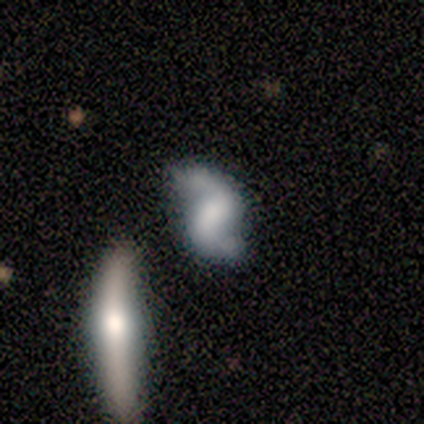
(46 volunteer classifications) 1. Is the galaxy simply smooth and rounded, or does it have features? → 78% featured or disk, 15% smooth, 7% star or artifact.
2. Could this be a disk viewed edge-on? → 97% no, 3% yes.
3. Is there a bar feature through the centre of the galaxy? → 49% weak, 34% no, 17% strong.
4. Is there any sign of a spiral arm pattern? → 89% yes, 11% no.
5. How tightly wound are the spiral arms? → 58% loose, 39% medium, 3% tight.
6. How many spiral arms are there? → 100% 2, 0% 1, 0% 3, 0% 4, 0% more than 4, 0% can't tell.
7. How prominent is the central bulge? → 31% none, 23% small, 20% moderate, 17% large, 9% dominant.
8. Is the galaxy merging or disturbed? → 60% none, 16% minor disturbance, 14% major disturbance, 9% merger.